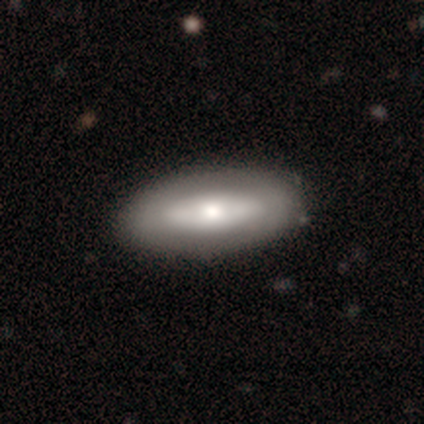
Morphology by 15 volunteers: This is possibly a smooth galaxy (47%). How rounded: clearly in between (100%). Merging: clearly none (92%).